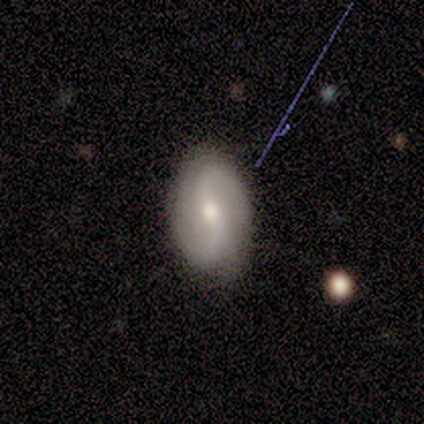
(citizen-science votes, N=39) smooth-or-featured: featured or disk: 67% | smooth: 28% | star or artifact: 5%
  disk-edge-on: no: 85% | yes: 15%
    bar: weak: 50% | no: 36% | strong: 14%
    has-spiral-arms: yes: 86% | no: 14%
      spiral-winding: medium: 53% | loose: 42% | tight: 5%
      spiral-arm-count: 2: 100% | 1: 0% | 3: 0% | 4: 0% | more than 4: 0% | can't tell: 0%
    bulge-size: moderate: 64% | small: 32% | large: 5% | dominant: 0% | none: 0%
  merging: none: 86% | minor disturbance: 11% | major disturbance: 3% | merger: 0%